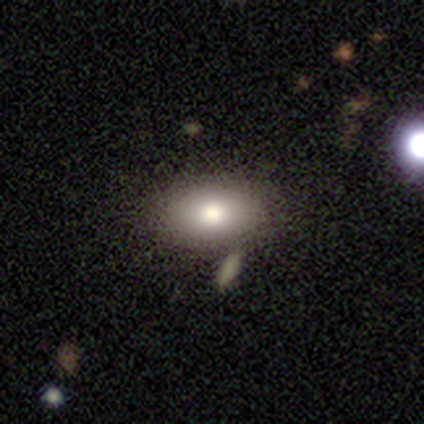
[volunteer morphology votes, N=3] smooth_or_featured: smooth (p=0.67) [alt: star or artifact p=0.33]
how_rounded: in between (p=1.00)
merging: none (p=1.00)